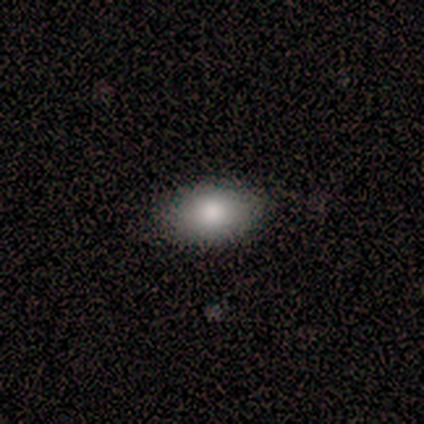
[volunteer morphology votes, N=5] Smooth or featured? 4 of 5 (80%) said smooth. How rounded? 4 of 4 (100%) said in between. Merging? 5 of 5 (100%) said none.